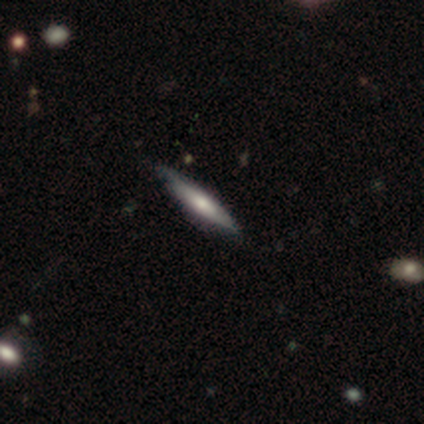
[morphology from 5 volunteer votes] smooth_or_featured: featured or disk (p=0.60) [alt: smooth p=0.40]
disk_edge_on: yes (p=1.00)
edge_on_bulge: rounded (p=0.67) [alt: none p=0.33]
merging: none (p=1.00)